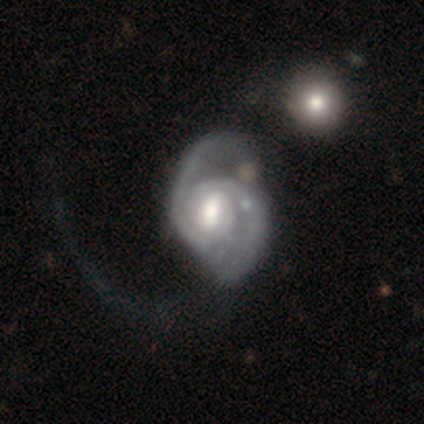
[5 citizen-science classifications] Overall: featured or disk (100%). Edge-on disk: no (100%). Bar: weak (80%). Spiral arms: yes (100%). Spiral arm count: 2 (100%). Spiral winding: loose (60%; medium 40%). Bulge size: moderate (80%). Merging: major disturbance (60%; none 20%).